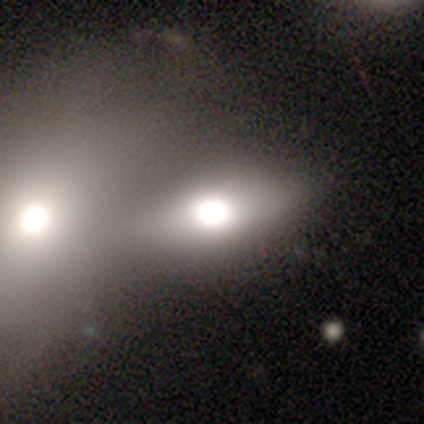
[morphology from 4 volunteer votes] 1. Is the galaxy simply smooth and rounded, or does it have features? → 100% smooth, 0% featured or disk, 0% star or artifact.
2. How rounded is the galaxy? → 75% in between, 25% round, 0% cigar-shaped.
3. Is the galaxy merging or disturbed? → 100% merger, 0% none, 0% minor disturbance, 0% major disturbance.